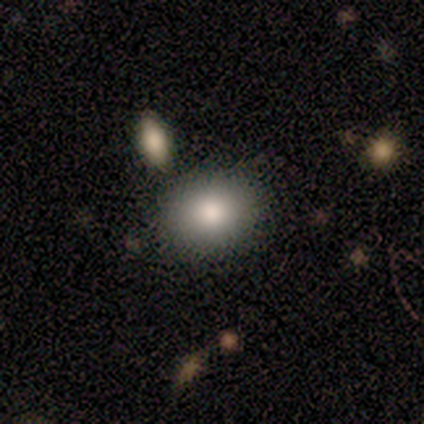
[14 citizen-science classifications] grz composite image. It shows a smooth galaxy with no disk features (93%) that is round (54%). Merging: none (85%).